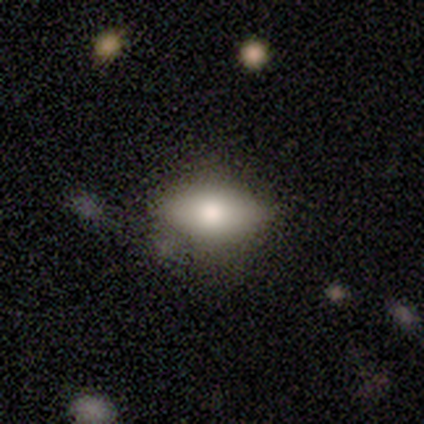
Smooth or featured? smooth (80%)
How rounded? in between (100%)
Merging? none (60%)